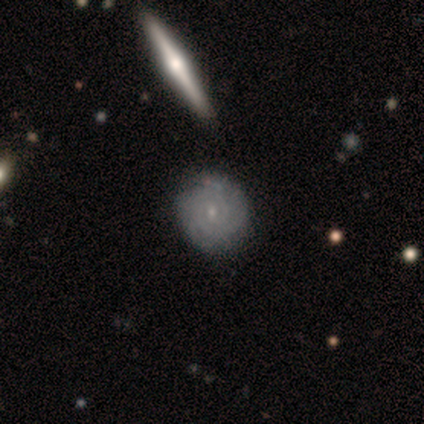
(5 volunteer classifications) A featured or disk galaxy (80%) with no bar (100%), 2 (75%) tight (100%) spiral arms (100%) and a small central bulge (100%). Merging: none (100%).